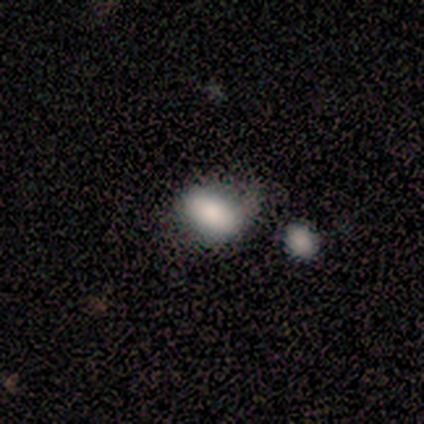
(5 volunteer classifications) smooth_or_featured: smooth (p=0.80) [alt: featured or disk p=0.20]
how_rounded: in between (p=0.75) [alt: round p=0.25]
merging: minor disturbance (p=0.60) [alt: none p=0.20]